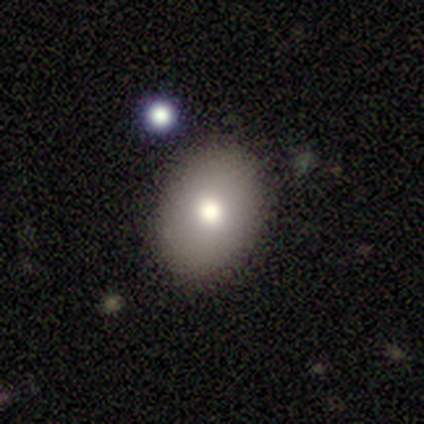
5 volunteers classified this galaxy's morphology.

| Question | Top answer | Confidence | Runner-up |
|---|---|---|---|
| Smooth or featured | smooth | 80% | star or artifact (20%) |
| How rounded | in between | 75% | round (25%) |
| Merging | none | 100% | — |